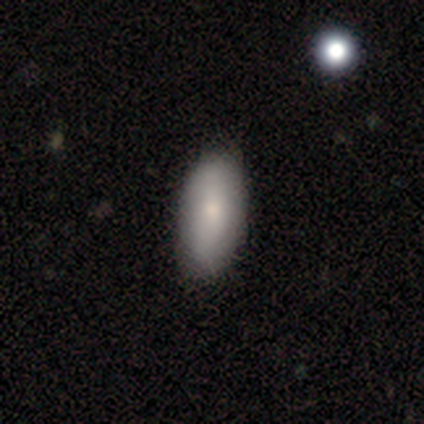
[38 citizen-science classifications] A smooth galaxy with no disk features (68%) that is in between round and cigar-shaped (96%). Merging: none (47%).